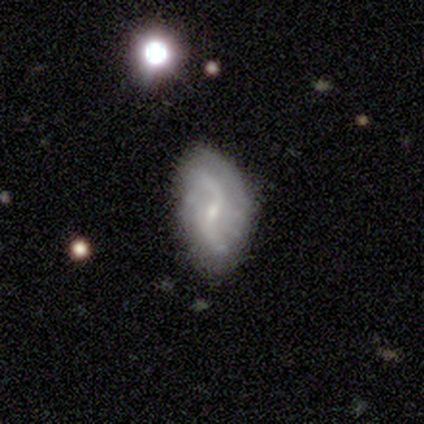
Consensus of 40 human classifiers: Volunteers were most divided on "bar": weak: 63%, no: 20%, strong: 17%. More confident: edge-on disk — no (100%); spiral arms — yes (89%); smooth or featured — featured or disk (88%); merging — none (79%); spiral arm count — 2 (77%); bulge size — small (74%); spiral winding — loose (74%).